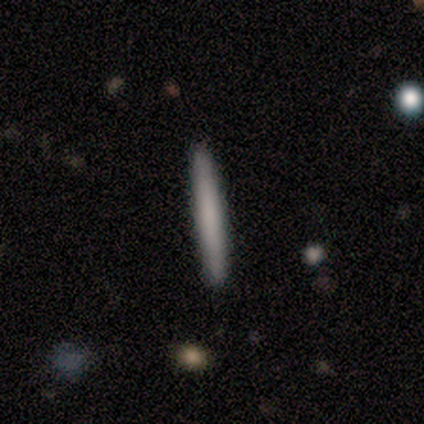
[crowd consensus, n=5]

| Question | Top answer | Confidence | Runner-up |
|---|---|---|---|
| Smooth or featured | smooth | 80% | featured or disk (20%) |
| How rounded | cigar-shaped | 100% | — |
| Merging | none | 100% | — |